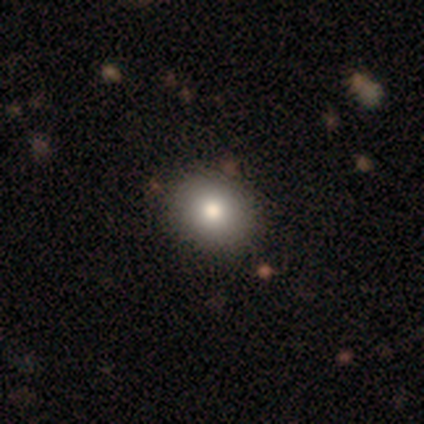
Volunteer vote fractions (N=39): Q: Smooth or featured?
A: smooth (74%); runner-up: featured or disk (18%)
Q: How rounded?
A: round (66%); runner-up: in between (34%)
Q: Merging?
A: none (75%); runner-up: merger (6%)